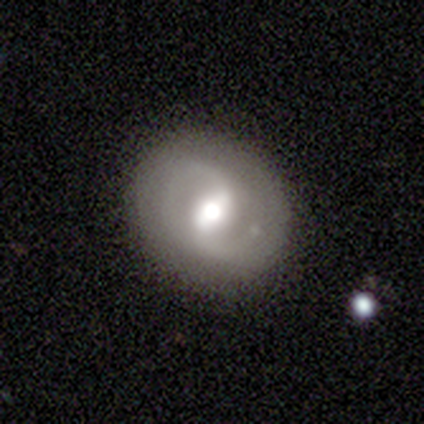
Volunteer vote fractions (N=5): Morphology: type=featured or disk (80%); edge-on=no (100%); bar=weak (75%); spiral arms=yes (100%); winding=loose (50%); arm count=2 (75%); bulge=moderate (100%); merging=none (100%).